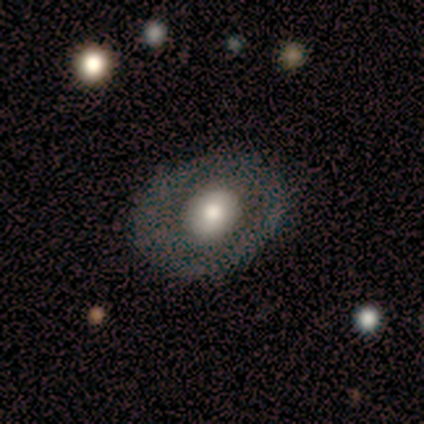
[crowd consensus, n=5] smooth-or-featured: smooth: 80% | featured or disk: 20% | star or artifact: 0%
  how-rounded: round: 50% (tied) | in between: 50% (tied) | cigar-shaped: 0%
  merging: none: 80% | minor disturbance: 20% | major disturbance: 0% | merger: 0%